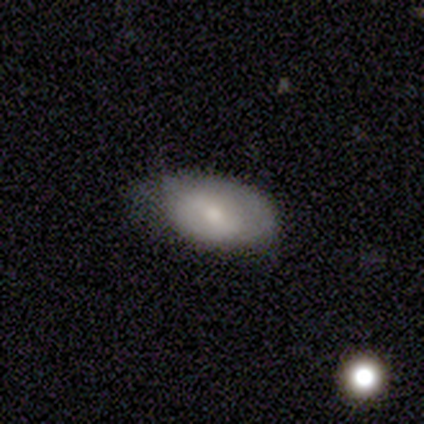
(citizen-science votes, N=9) A smooth galaxy with no disk features (89%) that is in between round and cigar-shaped (100%).

Vote fractions:
- Smooth or featured? smooth: 89% / featured or disk: 11% / star or artifact: 0%
- How rounded? in between: 100% / round: 0% / cigar-shaped: 0%
- Merging? minor disturbance: 56% / none: 33% / major disturbance: 11% / merger: 0%